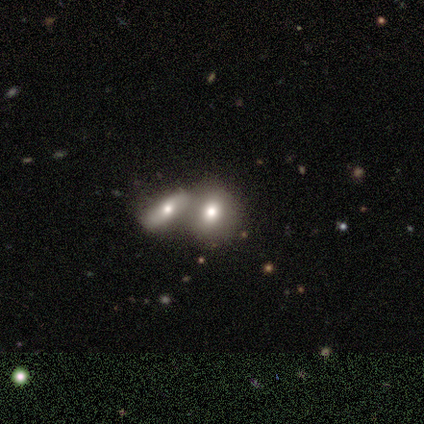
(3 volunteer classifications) smooth_or_featured: smooth (p=1.00)
how_rounded: round (p=0.67) [alt: in between p=0.33]
merging: none (p=1.00)